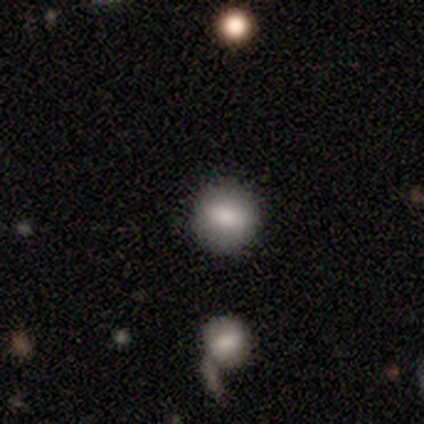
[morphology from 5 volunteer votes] smooth_or_featured: smooth (p=0.80) [alt: featured or disk p=0.20]
how_rounded: round (p=0.75) [alt: in between p=0.25]
merging: none (p=1.00)